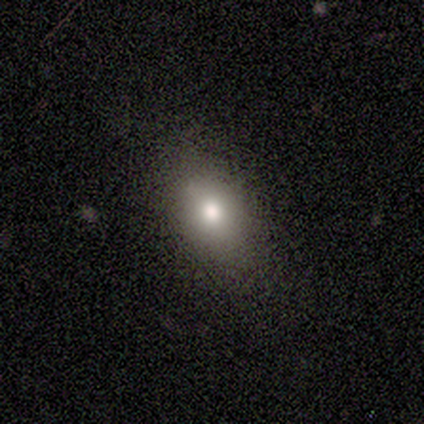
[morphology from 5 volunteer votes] A smooth galaxy with no disk features (80%) that is in between round and cigar-shaped (75%). Merging: none (100%).